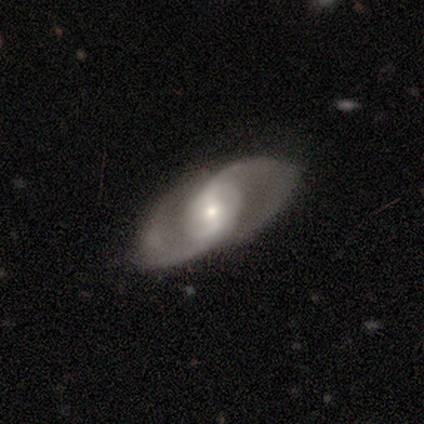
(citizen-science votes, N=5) Overall: featured or disk (80%). Edge-on disk: no (75%). Bar: weak (67%; strong 33%). Spiral arms: yes (100%). Spiral arm count: 2 (100%). Spiral winding: tight (33%, tied with medium and loose). Bulge size: large (67%; moderate 33%). Merging: none (100%).